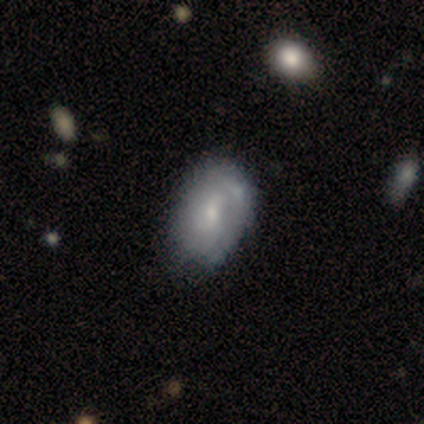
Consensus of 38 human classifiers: featured or disk 55%, smooth 42%, star or artifact 3%. Down the decision tree: edge-on disk — no (95%); bar — no (70%); spiral arms — yes (50%, tied with no); spiral arm count — can't tell (50%); spiral winding — tight (40%); bulge size — small (75%); merging — none (41%).